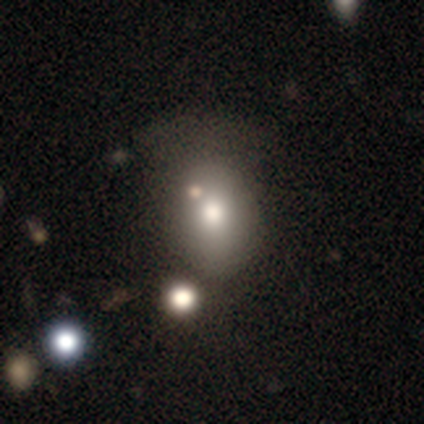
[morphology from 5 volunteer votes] smooth 60%, featured or disk 20%, star or artifact 20%. Down the decision tree: how rounded — in between (67%); merging — none (50%, tied with minor disturbance).